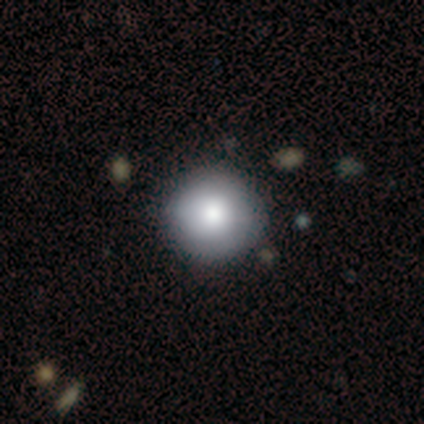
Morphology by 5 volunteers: Overall: smooth (100%). How rounded: round (100%). Merging: none (80%).